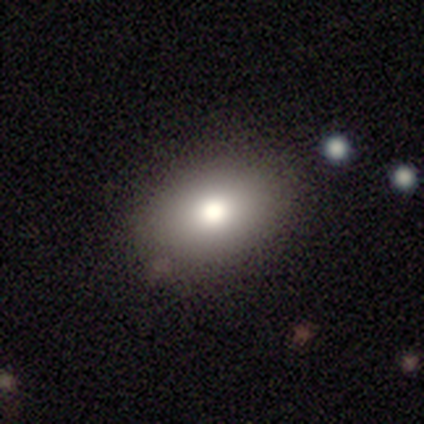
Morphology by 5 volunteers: A smooth galaxy with no disk features (100%) that is in between round and cigar-shaped (80%). Merging: none (100%).